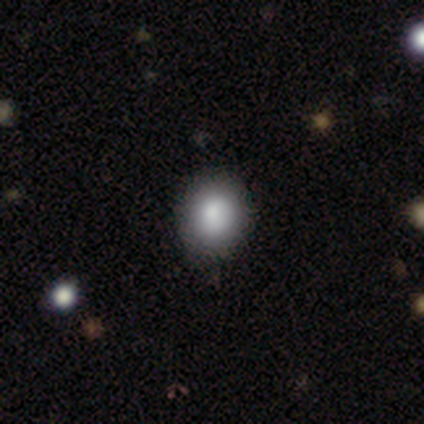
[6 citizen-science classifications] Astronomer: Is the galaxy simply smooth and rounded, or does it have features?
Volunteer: smooth — 83%.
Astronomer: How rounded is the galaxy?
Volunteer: round — 60% (runner-up: in between, 40%).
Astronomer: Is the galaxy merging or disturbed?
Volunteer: none — 83%.